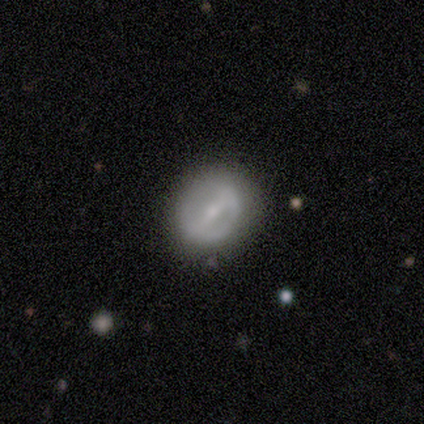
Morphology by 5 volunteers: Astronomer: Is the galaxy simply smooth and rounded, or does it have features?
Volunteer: smooth — 60% (runner-up: featured or disk, 40%).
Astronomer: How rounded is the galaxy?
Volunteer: round — 100%.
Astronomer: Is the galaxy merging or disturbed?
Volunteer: none — 60% (runner-up: minor disturbance, 40%).